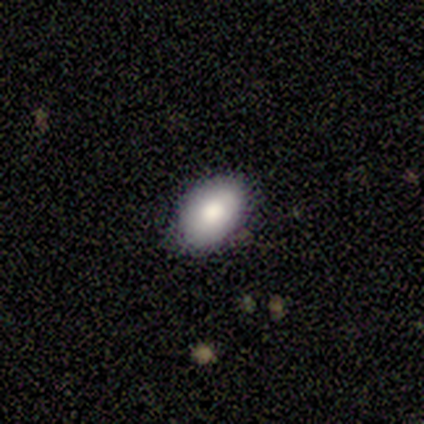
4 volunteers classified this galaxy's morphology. Smooth or featured? smooth (75%)
How rounded? in between (100%)
Merging? none (75%)